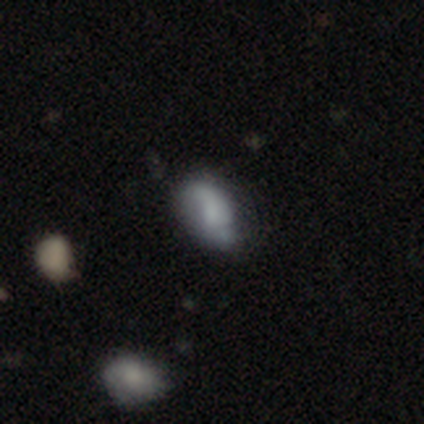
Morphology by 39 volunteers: type=featured or disk (46%); edge-on=no (89%); bar=no (75%); spiral arms=yes (56%); winding=loose (67%); arm count=2 (56%); bulge=none (62%); merging=none (43%).